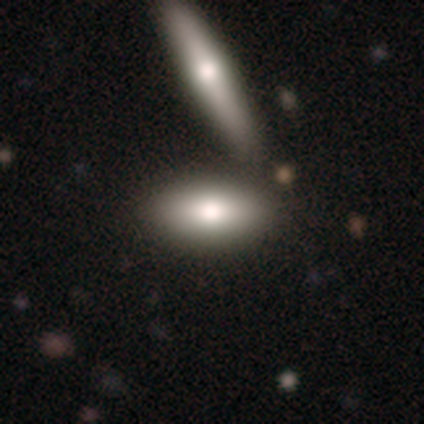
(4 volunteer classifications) This is clearly a smooth galaxy (100%). How rounded: clearly in between (100%). Merging: possibly none (50%).